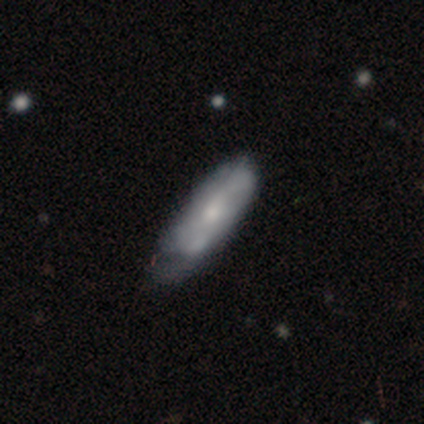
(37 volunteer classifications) Overall: featured or disk (65%; smooth 35%). Edge-on disk: no (71%). Bar: no (76%). Spiral arms: yes (76%). Spiral arm count: 2 (54%; can't tell 46%). Spiral winding: loose (46%; medium 38%). Bulge size: moderate (59%; small 35%). Merging: minor disturbance (35%; none 32%).